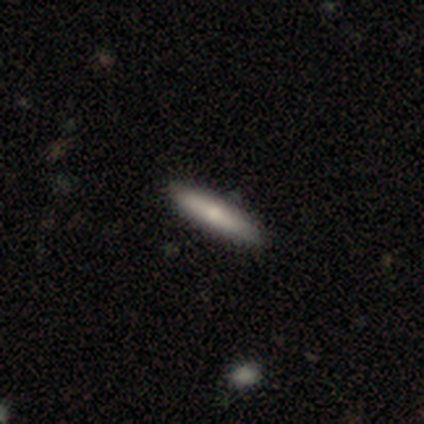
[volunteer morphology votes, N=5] smooth 60%, featured or disk 20%, star or artifact 20%. Down the decision tree: how rounded — cigar-shaped (100%); merging — none (75%).